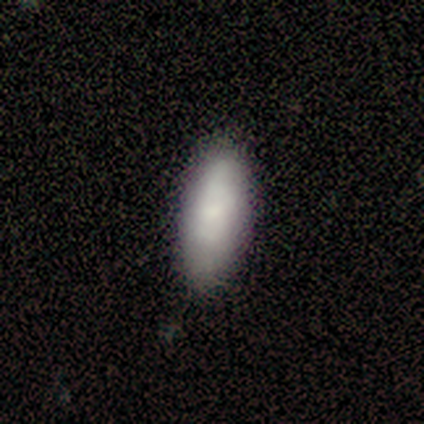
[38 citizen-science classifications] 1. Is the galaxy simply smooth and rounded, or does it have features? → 76% smooth, 13% featured or disk, 11% star or artifact.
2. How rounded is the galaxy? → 83% in between, 17% cigar-shaped, 0% round.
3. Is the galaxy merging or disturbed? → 79% none, 18% minor disturbance, 3% major disturbance, 0% merger.